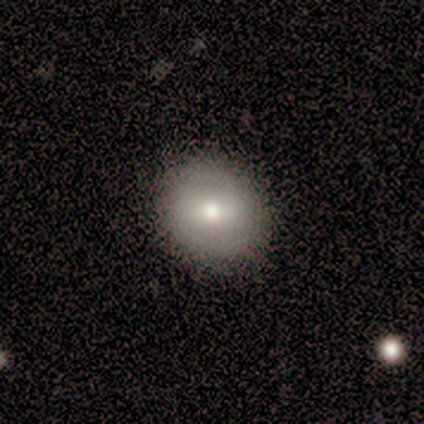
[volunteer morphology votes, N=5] This is marginally a smooth galaxy (40%, tied with featured or disk). How rounded: clearly round (100%). Merging: clearly none (100%).